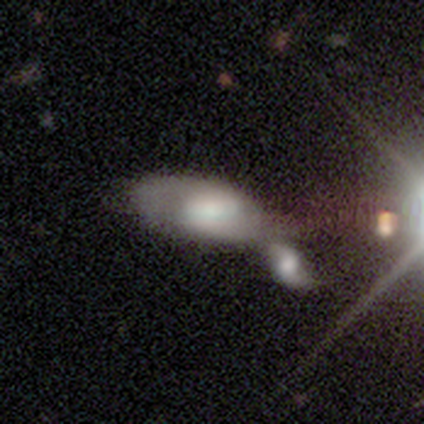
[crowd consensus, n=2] Q: Smooth or featured?
A: featured or disk (100%)
Q: Edge-on disk?
A: no (100%)
Q: Bar?
A: strong (50%); tied with: no (50%)
Q: Spiral arms?
A: yes (50%); tied with: no (50%)
Q: Spiral winding?
A: tight (100%)
Q: Spiral arm count?
A: 2 (100%)
Q: Bulge size?
A: large (50%); tied with: moderate (50%)
Q: Merging?
A: minor disturbance (50%); tied with: merger (50%)